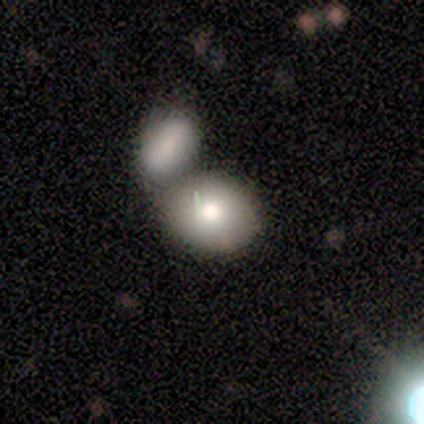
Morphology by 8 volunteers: Smooth or featured?
  - smooth: 50% * (tied)
  - star or artifact: 50% * (tied)
  - featured or disk: 0%
How rounded?
  - round: 50% * (tied)
  - in between: 50% * (tied)
  - cigar-shaped: 0%
Merging?
  - none: 50% * (tied)
  - merger: 50% * (tied)
  - minor disturbance: 0%
  - major disturbance: 0%